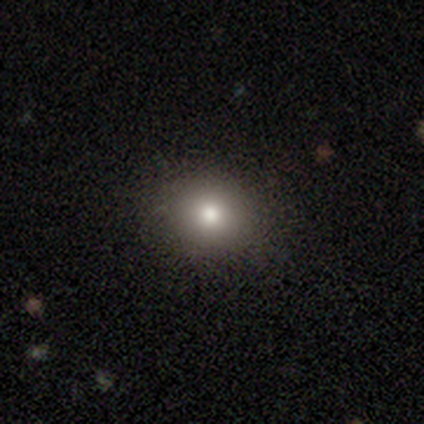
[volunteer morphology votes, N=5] Q: Smooth or featured?
A: smooth (80%); runner-up: star or artifact (20%)
Q: How rounded?
A: round (75%); runner-up: in between (25%)
Q: Merging?
A: none (75%); runner-up: minor disturbance (25%)